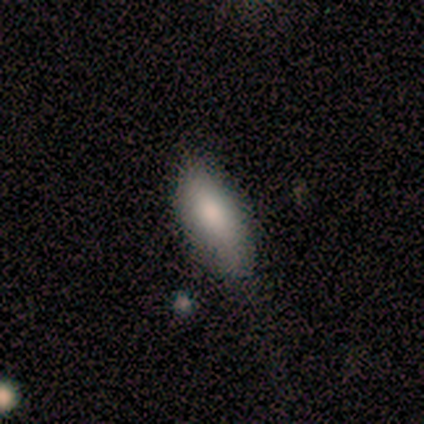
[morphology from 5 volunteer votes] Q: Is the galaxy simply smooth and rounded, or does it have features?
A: smooth — 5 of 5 (100%).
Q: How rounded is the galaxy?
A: in between — 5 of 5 (100%).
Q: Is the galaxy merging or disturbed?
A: none — 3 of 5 (60%).